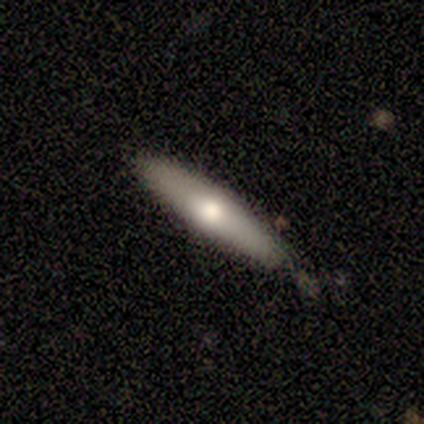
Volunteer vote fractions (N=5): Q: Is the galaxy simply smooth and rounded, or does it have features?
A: smooth — 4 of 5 (80%).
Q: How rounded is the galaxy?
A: cigar-shaped — 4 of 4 (100%).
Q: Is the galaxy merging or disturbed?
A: none — 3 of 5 (60%).